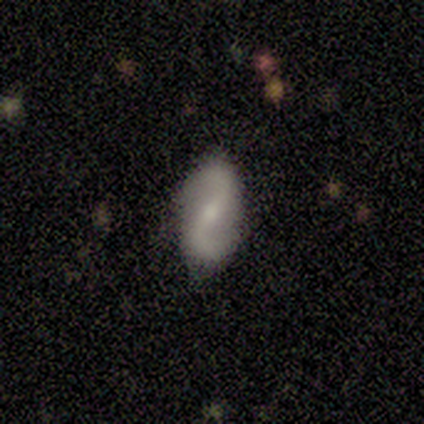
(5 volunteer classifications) Overall: featured or disk (80%). Edge-on disk: no (100%). Bar: strong (75%). Spiral arms: yes (100%). Spiral arm count: 2 (100%). Spiral winding: loose (75%). Bulge size: moderate (50%; small 25%). Merging: none (60%; minor disturbance 20%).